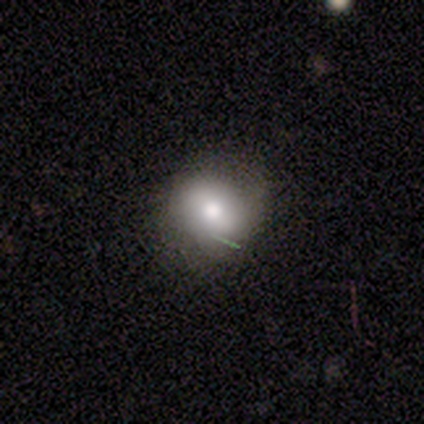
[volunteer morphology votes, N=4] smooth 75%, featured or disk 25%, star or artifact 0%. Down the decision tree: how rounded — round (100%); merging — none (100%).